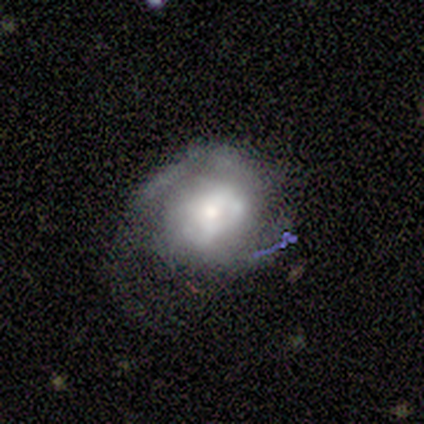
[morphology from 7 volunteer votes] featured or disk 57%, smooth 43%, star or artifact 0%. Down the decision tree: edge-on disk — no (100%); bar — weak (50%, tied with no); spiral arms — yes (100%); spiral arm count — 2 (75%); spiral winding — tight (50%); bulge size — moderate (50%); merging — minor disturbance (43%).